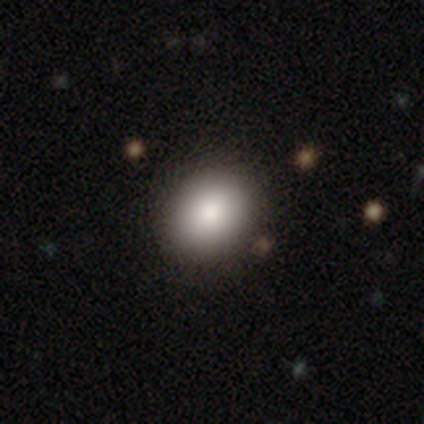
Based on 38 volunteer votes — This is clearly a smooth galaxy (89%). How rounded: possibly in between (53%). Merging: possibly none (57%).